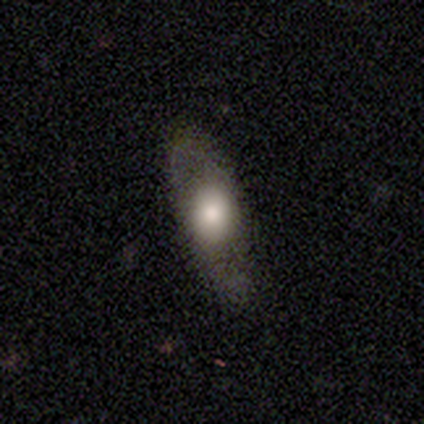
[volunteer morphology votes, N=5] Q: Smooth or featured?
A: featured or disk (80%); runner-up: smooth (20%)
Q: Edge-on disk?
A: yes (50%); tied with: no (50%)
Q: Edge-on bulge?
A: boxy (50%); tied with: none (50%)
Q: Merging?
A: none (80%); runner-up: minor disturbance (20%)